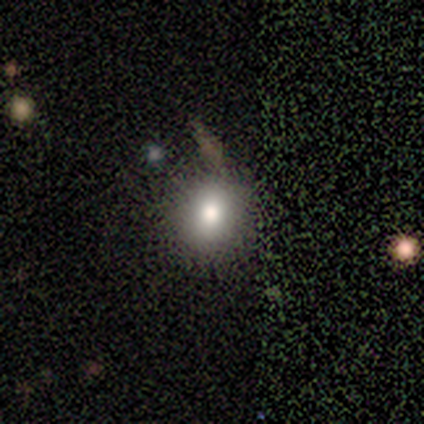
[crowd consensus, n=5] Q: Smooth or featured?
A: smooth (100%)
Q: How rounded?
A: round (60%); runner-up: in between (40%)
Q: Merging?
A: none (100%)